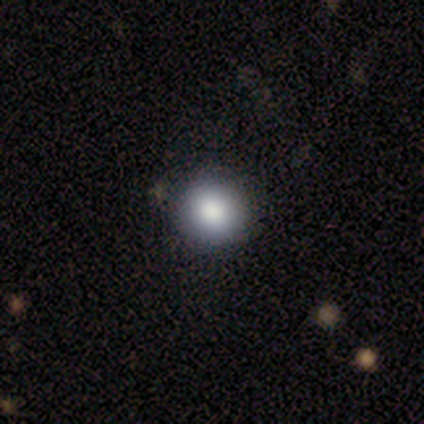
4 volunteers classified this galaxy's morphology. Smooth or featured?
  - smooth: 100% *
  - featured or disk: 0%
  - star or artifact: 0%
How rounded?
  - round: 100% *
  - in between: 0%
  - cigar-shaped: 0%
Merging?
  - none: 100% *
  - minor disturbance: 0%
  - major disturbance: 0%
  - merger: 0%